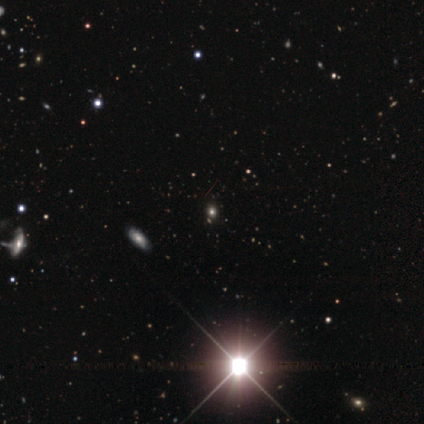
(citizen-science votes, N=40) Morphology: type=star or artifact (85%).